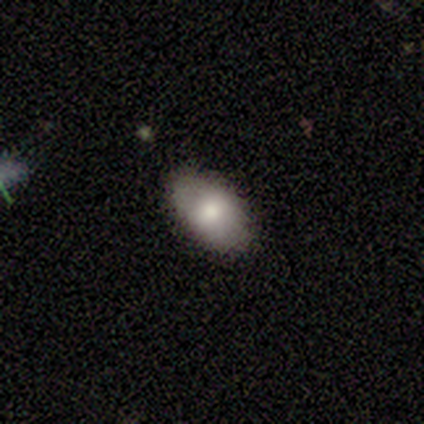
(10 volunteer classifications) Morphology: type=smooth (70%); roundness=in between (100%); merging=none (100%).